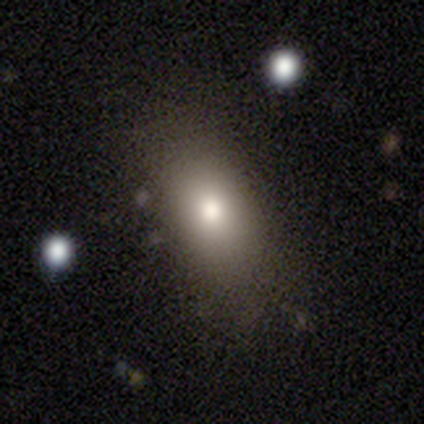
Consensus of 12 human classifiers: smooth 75%, featured or disk 17%, star or artifact 8%. Down the decision tree: how rounded — in between (89%); merging — none (73%).